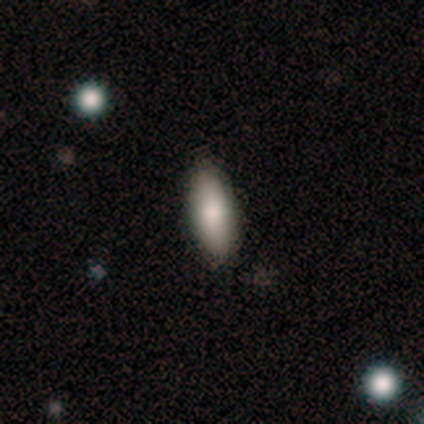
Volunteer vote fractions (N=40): This appears to be a smooth galaxy with no disk features (70%) that is in between round and cigar-shaped (75%). Merging: none (94%).